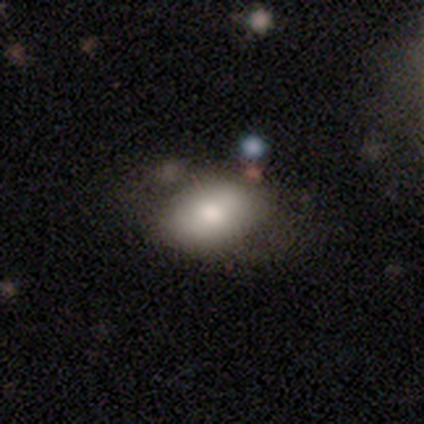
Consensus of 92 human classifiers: This appears to be a smooth galaxy with no disk features (72%) that is in between round and cigar-shaped (89%). Merging: none (61%).